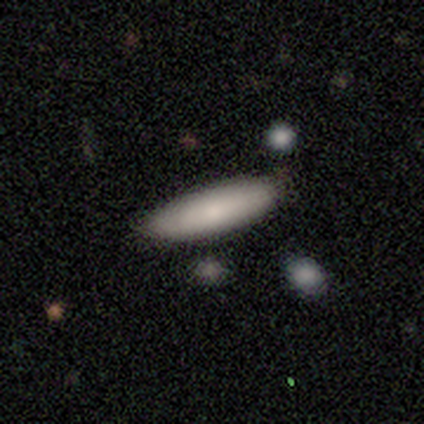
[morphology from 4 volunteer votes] Smooth or featured: smooth — 100%
How rounded: in between — 75% (cigar-shaped — 25%)
Merging: none — 100%